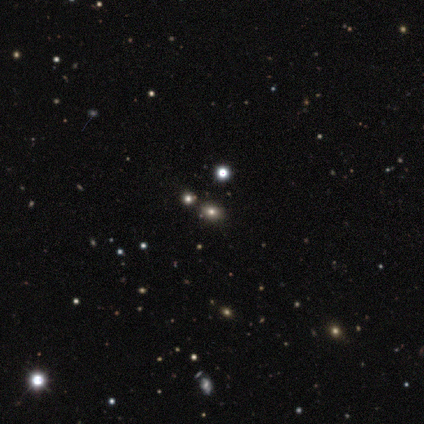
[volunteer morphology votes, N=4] Smooth or featured? smooth (50%, tied with star or artifact)
How rounded? round (50%, tied with in between)
Merging? none (100%)